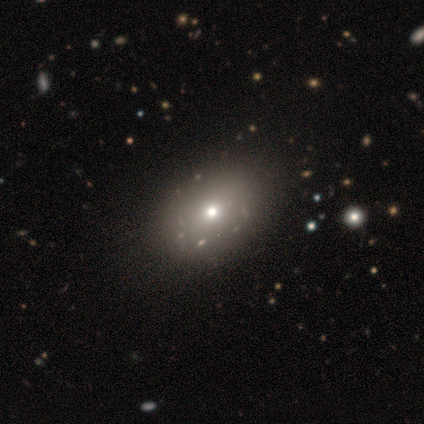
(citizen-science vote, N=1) A featured or disk galaxy (100%) with no bar (100%), no spiral arms (100%) and a small central bulge (100%).

Vote fractions:
- Smooth or featured? featured or disk: 100% / smooth: 0% / star or artifact: 0%
- Edge-on disk? no: 100% / yes: 0%
- Bar? no: 100% / strong: 0% / weak: 0%
- Spiral arms? no: 100% / yes: 0%
- Bulge size? small: 100% / dominant: 0% / large: 0% / moderate: 0% / none: 0%
- Merging? none: 100% / minor disturbance: 0% / major disturbance: 0% / merger: 0%